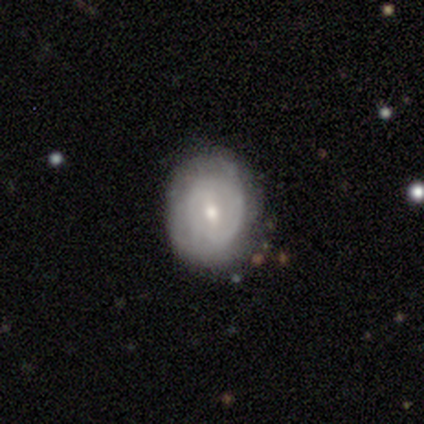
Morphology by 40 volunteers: smooth_or_featured: featured or disk (p=0.65) [alt: smooth p=0.30]
disk_edge_on: no (p=0.96) [alt: yes p=0.04]
bar: weak (p=0.72) [alt: no p=0.24]
has_spiral_arms: yes (p=0.72) [alt: no p=0.28]
spiral_winding: medium (p=0.50) [alt: tight p=0.44]
spiral_arm_count: can't tell (p=0.50) [alt: 2 p=0.44]
bulge_size: moderate (p=0.48) [alt: small p=0.44]
merging: none (p=0.84) [alt: minor disturbance p=0.08]